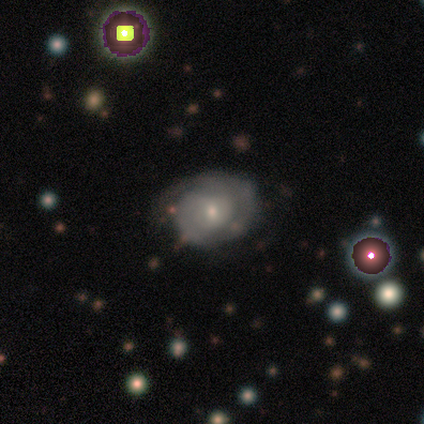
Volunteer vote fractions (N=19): Q: Smooth or featured?
A: featured or disk (68%); runner-up: smooth (16%)
Q: Edge-on disk?
A: no (100%)
Q: Bar?
A: no (69%); runner-up: weak (23%)
Q: Spiral arms?
A: yes (77%); runner-up: no (23%)
Q: Spiral winding?
A: tight (60%); runner-up: medium (30%)
Q: Spiral arm count?
A: can't tell (50%); runner-up: 1 (30%)
Q: Bulge size?
A: small (85%); runner-up: moderate (15%)
Q: Merging?
A: none (62%); runner-up: minor disturbance (19%)